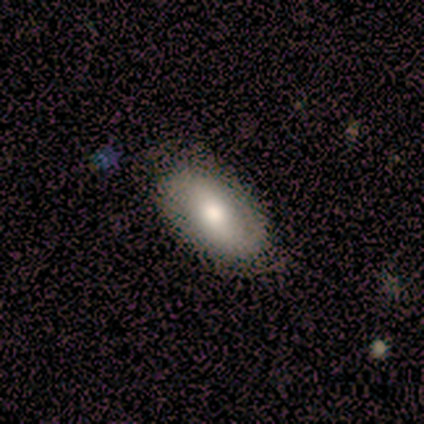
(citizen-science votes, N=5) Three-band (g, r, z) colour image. It shows a smooth galaxy with no disk features (40%, tied with featured or disk) that is in between round and cigar-shaped (100%). Merging: none (100%).